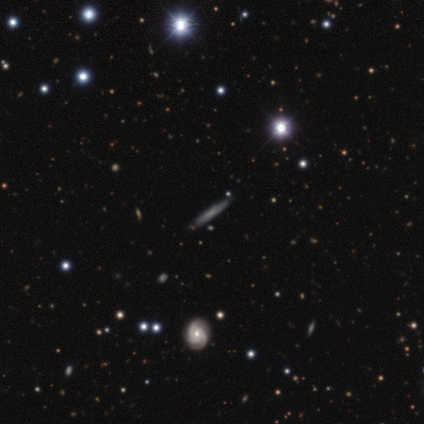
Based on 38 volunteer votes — smooth_or_featured: smooth (p=0.50) [alt: featured or disk p=0.37]
how_rounded: cigar-shaped (p=1.00)
merging: none (p=0.94) [alt: minor disturbance p=0.06]